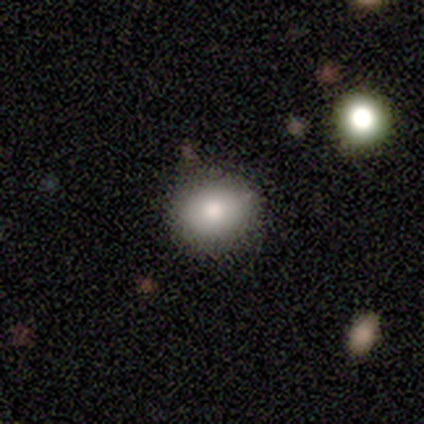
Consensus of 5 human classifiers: This is clearly a smooth galaxy (100%). How rounded: clearly round (80%). Merging: clearly none (100%).